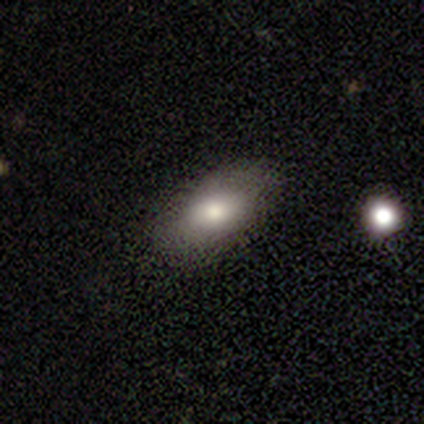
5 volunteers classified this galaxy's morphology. This appears to be a smooth galaxy with no disk features (100%) that is in between round and cigar-shaped (80%). Merging: none (60%).